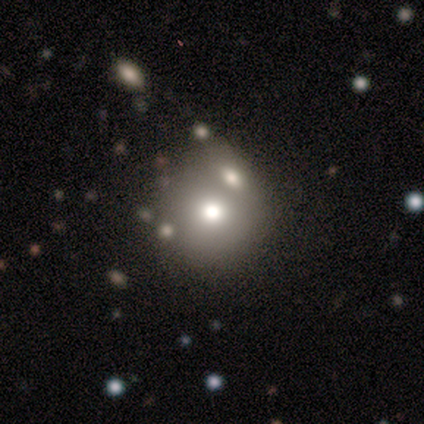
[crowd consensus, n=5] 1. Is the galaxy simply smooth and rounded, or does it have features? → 80% smooth, 20% featured or disk, 0% star or artifact.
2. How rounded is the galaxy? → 75% round, 25% in between, 0% cigar-shaped.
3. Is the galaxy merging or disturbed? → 60% none, 20% minor disturbance, 20% merger, 0% major disturbance.